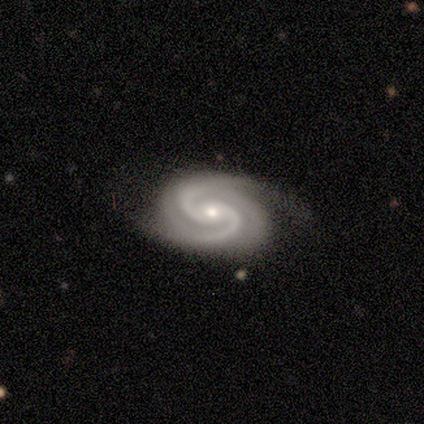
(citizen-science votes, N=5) This appears to be a featured or disk galaxy (100%) with a strong bar (33%, tied with weak and no), 3 (67%) tight (33%, tied with medium and loose) spiral arms (100%) and a small central bulge (67%). Merging: none (80%).